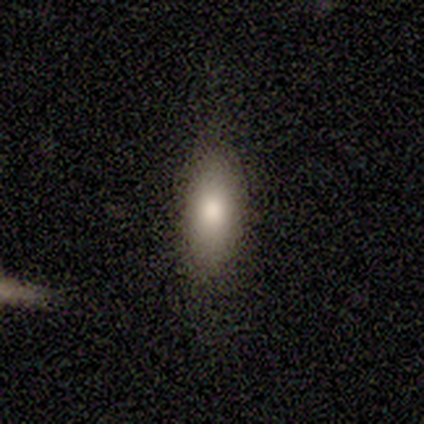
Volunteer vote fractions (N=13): Smooth or featured: smooth — 77% (featured or disk — 23%)
How rounded: in between — 80% (cigar-shaped — 20%)
Merging: none — 92% (minor disturbance — 8%)